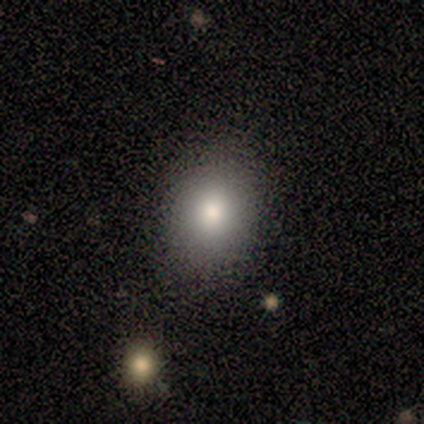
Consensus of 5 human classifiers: This is clearly a smooth galaxy (100%). How rounded: clearly in between (80%). Merging: likely none (60%).